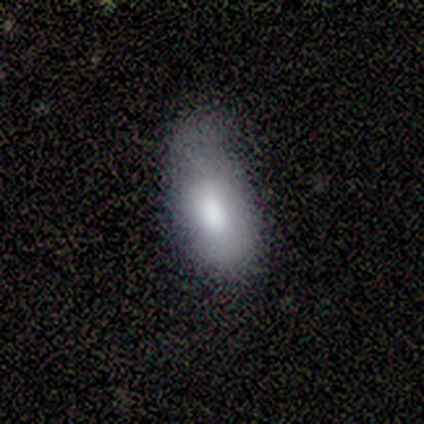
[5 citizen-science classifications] Volunteers were most divided on "smooth or featured": smooth: 60%, featured or disk: 40%, star or artifact: 0%. More confident: how rounded — in between (100%); merging — minor disturbance (80%).